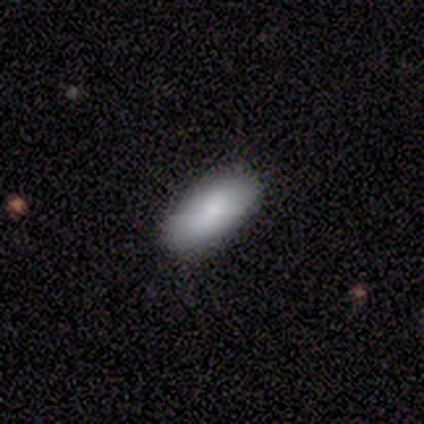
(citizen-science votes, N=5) Overall: smooth (80%). How rounded: in between (100%). Merging: none (80%).